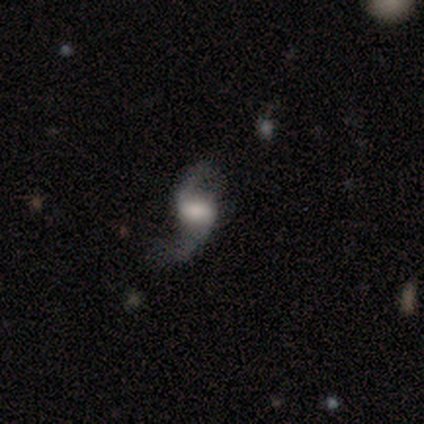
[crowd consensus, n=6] smooth_or_featured: featured or disk (p=1.00)
disk_edge_on: no (p=1.00)
bar: weak (p=0.50) [alt: no p=0.33]
has_spiral_arms: yes (p=1.00)
spiral_winding: loose (p=1.00)
spiral_arm_count: 2 (p=1.00)
bulge_size: large (p=0.50) [alt: small p=0.33]
merging: none (p=0.67) [alt: minor disturbance p=0.33]